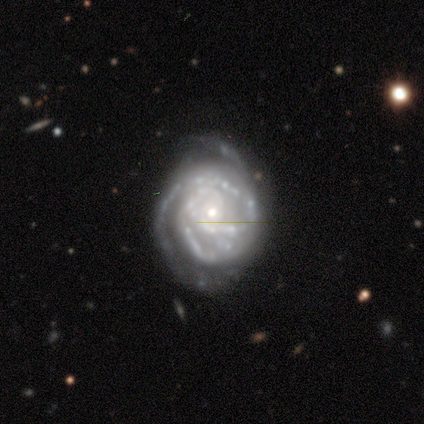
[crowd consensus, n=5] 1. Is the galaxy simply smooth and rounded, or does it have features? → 80% featured or disk, 20% smooth, 0% star or artifact.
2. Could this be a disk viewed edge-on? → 100% no, 0% yes.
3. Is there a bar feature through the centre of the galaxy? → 75% no, 25% weak, 0% strong.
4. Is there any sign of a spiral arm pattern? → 100% yes, 0% no.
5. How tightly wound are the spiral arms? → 75% tight, 25% medium, 0% loose.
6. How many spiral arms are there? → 50% 2, 25% 3, 25% can't tell, 0% 1, 0% 4, 0% more than 4.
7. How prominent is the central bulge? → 100% small, 0% dominant, 0% large, 0% moderate, 0% none.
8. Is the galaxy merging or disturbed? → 80% none, 20% minor disturbance, 0% major disturbance, 0% merger.